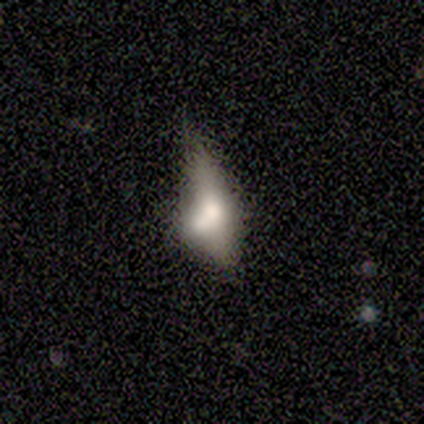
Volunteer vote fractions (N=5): This appears to be a smooth galaxy with no disk features (40%, tied with featured or disk) that is in between round and cigar-shaped (50%, tied with cigar-shaped). Merging: none (25%, tied with minor disturbance, major disturbance and merger).